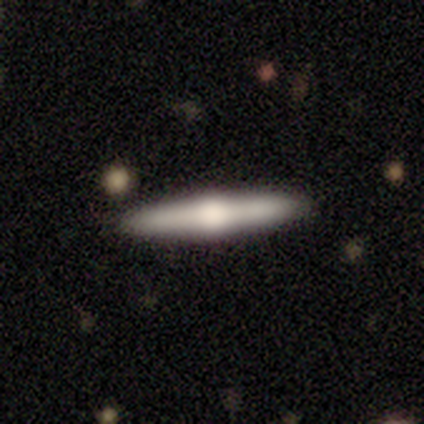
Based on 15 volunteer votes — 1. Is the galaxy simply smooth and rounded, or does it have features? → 73% featured or disk, 27% smooth, 0% star or artifact.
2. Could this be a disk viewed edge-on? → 100% yes, 0% no.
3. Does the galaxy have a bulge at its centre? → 100% rounded, 0% boxy, 0% none.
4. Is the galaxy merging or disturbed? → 87% none, 7% minor disturbance, 7% merger, 0% major disturbance.